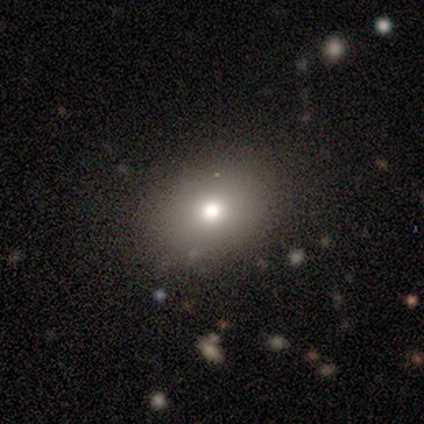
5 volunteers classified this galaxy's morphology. smooth_or_featured: smooth (p=0.60) [alt: star or artifact p=0.40]
how_rounded: in between (p=1.00)
merging: none (p=1.00)